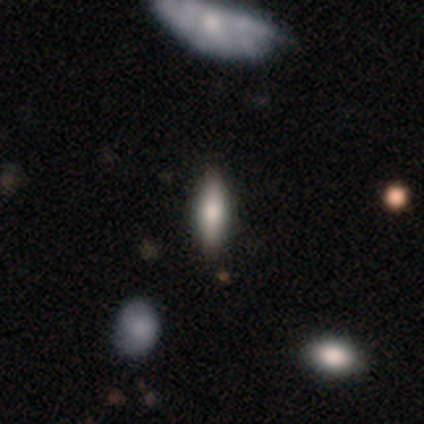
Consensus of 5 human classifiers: A smooth galaxy with no disk features (40%, tied with featured or disk) that is in between round and cigar-shaped (100%).

Vote fractions:
- Smooth or featured? smooth: 40% (tied) / featured or disk: 40% (tied) / star or artifact: 20%
- How rounded? in between: 100% / round: 0% / cigar-shaped: 0%
- Merging? none: 75% / merger: 25% / minor disturbance: 0% / major disturbance: 0%